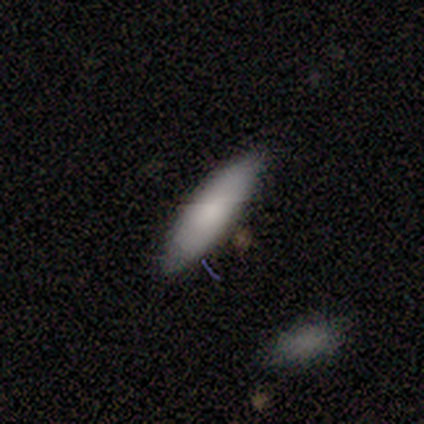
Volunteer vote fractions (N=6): A smooth galaxy with no disk features (67%) that is cigar-shaped (75%).

Vote fractions:
- Smooth or featured? smooth: 67% / featured or disk: 33% / star or artifact: 0%
- How rounded? cigar-shaped: 75% / in between: 25% / round: 0%
- Merging? none: 67% / minor disturbance: 17% / merger: 17% / major disturbance: 0%